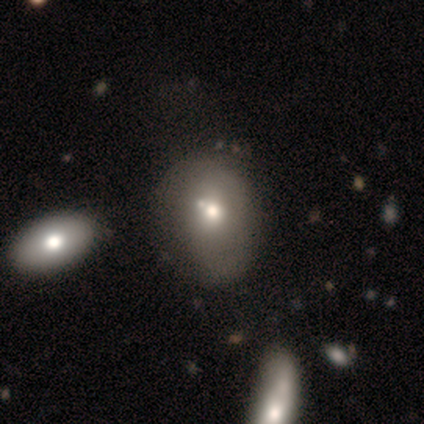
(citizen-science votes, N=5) Q: Smooth or featured?
A: smooth (100%)
Q: How rounded?
A: in between (80%); runner-up: round (20%)
Q: Merging?
A: minor disturbance (40%); tied with: merger (40%)